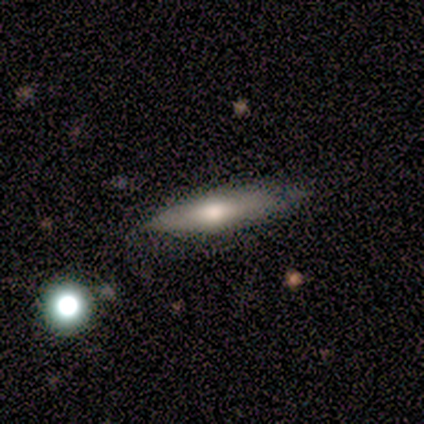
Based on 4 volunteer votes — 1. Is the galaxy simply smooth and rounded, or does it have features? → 100% featured or disk, 0% smooth, 0% star or artifact.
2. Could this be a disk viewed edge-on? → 75% yes, 25% no.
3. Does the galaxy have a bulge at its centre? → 100% rounded, 0% boxy, 0% none.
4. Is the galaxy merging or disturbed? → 100% none, 0% minor disturbance, 0% major disturbance, 0% merger.